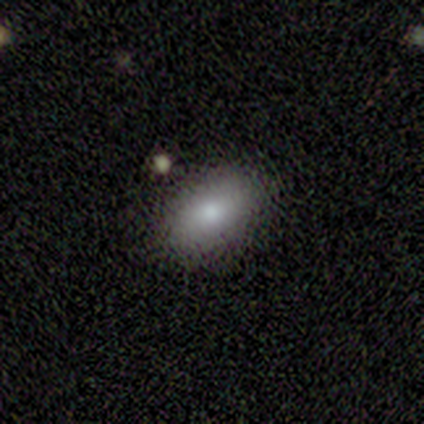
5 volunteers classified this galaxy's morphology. Smooth or featured?
  - smooth: 60% *
  - featured or disk: 20%
  - star or artifact: 20%
How rounded?
  - in between: 100% *
  - round: 0%
  - cigar-shaped: 0%
Merging?
  - none: 100% *
  - minor disturbance: 0%
  - major disturbance: 0%
  - merger: 0%